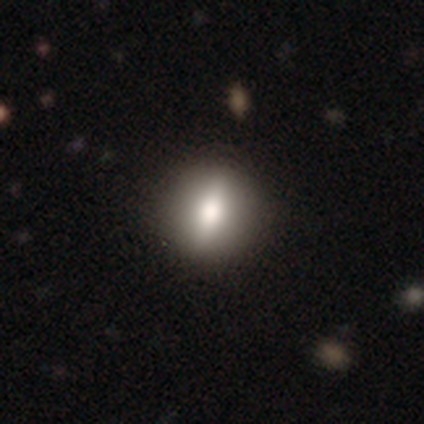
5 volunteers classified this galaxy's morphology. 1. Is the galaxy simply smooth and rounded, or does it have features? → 60% smooth, 40% featured or disk, 0% star or artifact.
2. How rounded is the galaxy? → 67% in between, 33% cigar-shaped, 0% round.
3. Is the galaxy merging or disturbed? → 60% none, 40% minor disturbance, 0% major disturbance, 0% merger.